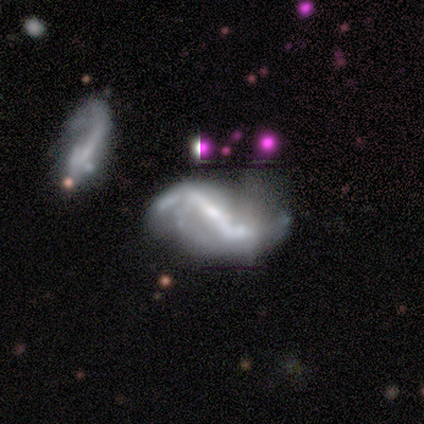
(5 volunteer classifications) Overall: featured or disk (100%). Edge-on disk: no (100%). Bar: strong (100%). Spiral arms: yes (100%). Spiral arm count: 2 (100%). Spiral winding: loose (60%; medium 40%). Bulge size: moderate (60%; small 40%). Merging: none (60%; minor disturbance 20%).